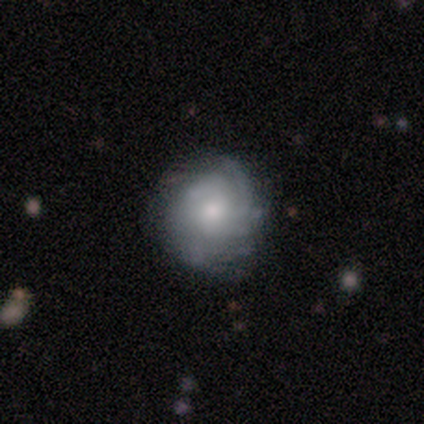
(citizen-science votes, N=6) A featured or disk galaxy (67%) with no bar (75%), 1 (50%) tight (50%) spiral arms (100%) and a small central bulge (100%).

Vote fractions:
- Smooth or featured? featured or disk: 67% / star or artifact: 33% / smooth: 0%
- Edge-on disk? no: 100% / yes: 0%
- Bar? no: 75% / weak: 25% / strong: 0%
- Spiral arms? yes: 100% / no: 0%
- Spiral winding? tight: 50% / medium: 25% / loose: 25%
- Spiral arm count? 1: 50% / 2: 25% / 4: 25% / 3: 0% / more than 4: 0% / can't tell: 0%
- Bulge size? small: 100% / dominant: 0% / large: 0% / moderate: 0% / none: 0%
- Merging? none: 100% / minor disturbance: 0% / major disturbance: 0% / merger: 0%